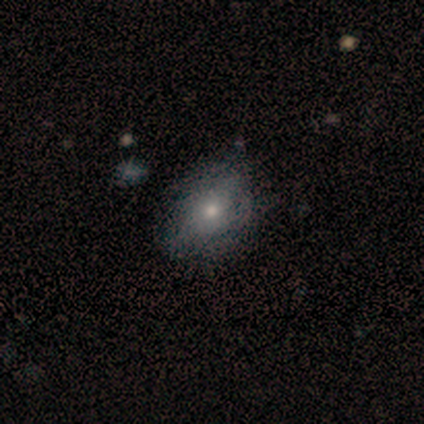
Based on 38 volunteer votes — Morphology: type=smooth (61%); roundness=in between (74%); merging=none (66%).